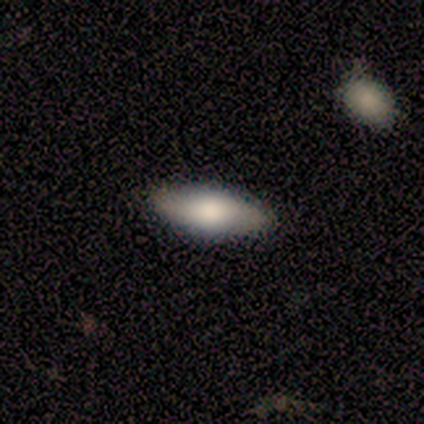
A smooth galaxy with no disk features (60%) that is in between round and cigar-shaped (100%). Merging: none (100%).